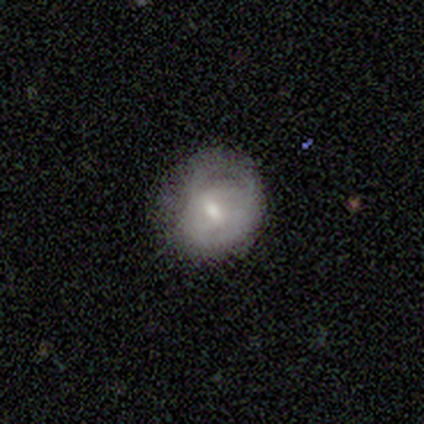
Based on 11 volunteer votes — smooth-or-featured: featured or disk: 55% | smooth: 45% | star or artifact: 0%
  disk-edge-on: no: 100% | yes: 0%
    bar: weak: 50% | no: 33% | strong: 17%
    has-spiral-arms: yes: 100% | no: 0%
      spiral-winding: tight: 50% (tied) | medium: 50% (tied) | loose: 0%
      spiral-arm-count: can't tell: 50% | 1: 17% | 2: 17% | 3: 17% | 4: 0% | more than 4: 0%
    bulge-size: moderate: 100% | dominant: 0% | large: 0% | small: 0% | none: 0%
  merging: none: 55% | minor disturbance: 27% | major disturbance: 9% | merger: 9%